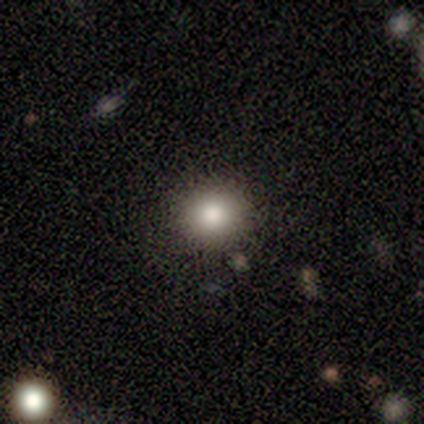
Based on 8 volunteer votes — Q: Smooth or featured?
A: smooth (62%); runner-up: star or artifact (38%)
Q: How rounded?
A: round (60%); runner-up: in between (40%)
Q: Merging?
A: none (100%)